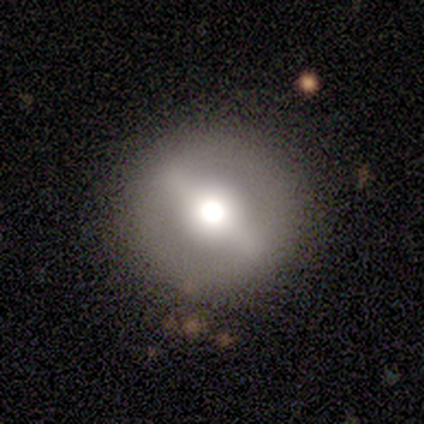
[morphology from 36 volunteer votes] Overall: featured or disk (67%; smooth 28%). Edge-on disk: no (83%). Bar: strong (80%). Spiral arms: no (80%). Bulge size: large (45%; moderate 35%). Merging: none (91%).